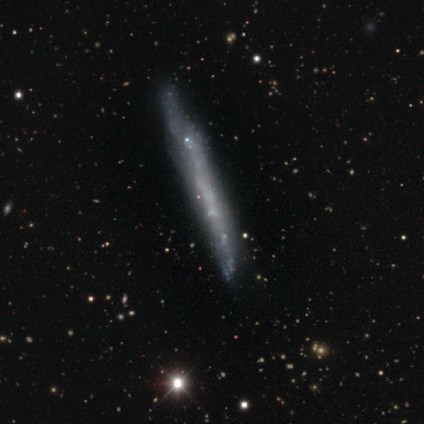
Volunteers were most divided on "smooth or featured": featured or disk: 45%, smooth: 36%, star or artifact: 18%. More confident: edge-on bulge — none (100%); edge-on disk — yes (80%); merging — none (56%).